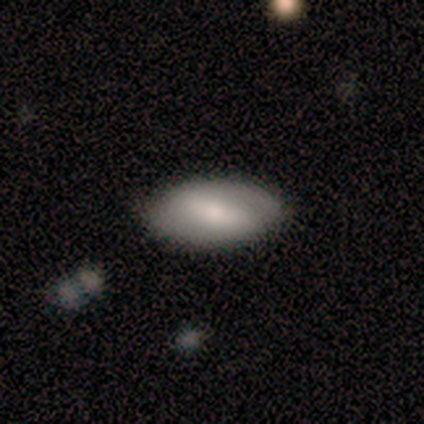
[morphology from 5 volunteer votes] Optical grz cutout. It shows a featured or disk galaxy (80%) with a strong bar (50%, tied with weak), 2 (100%) tight (100%) spiral arms (50%, tied with no) and a small central bulge (50%). Merging: none (100%).